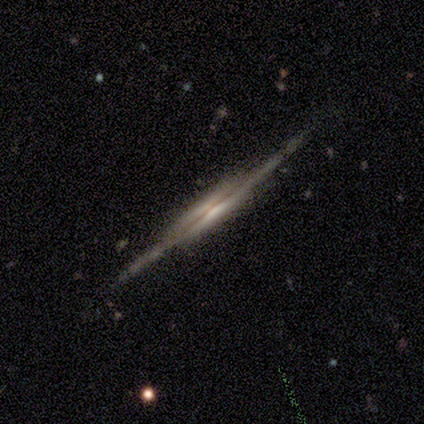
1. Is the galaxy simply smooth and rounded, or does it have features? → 75% featured or disk, 25% smooth, 0% star or artifact.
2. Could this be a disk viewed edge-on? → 100% yes, 0% no.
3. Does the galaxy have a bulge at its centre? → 33% boxy (tied), 33% none (tied), 33% rounded (tied).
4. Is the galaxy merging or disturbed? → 75% none, 25% major disturbance, 0% minor disturbance, 0% merger.